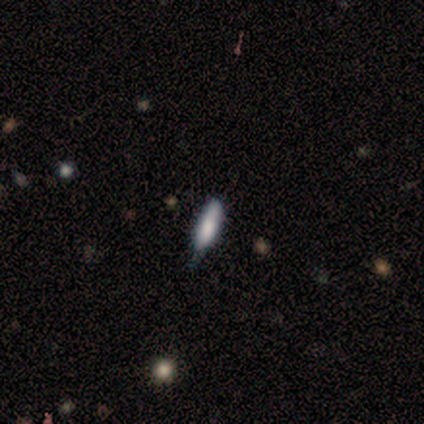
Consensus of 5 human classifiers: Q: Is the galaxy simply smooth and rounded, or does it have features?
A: featured or disk — 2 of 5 (40%, tied with star or artifact).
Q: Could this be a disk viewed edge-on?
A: yes — 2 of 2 (100%).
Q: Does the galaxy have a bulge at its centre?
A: boxy — 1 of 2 (50%, tied with none).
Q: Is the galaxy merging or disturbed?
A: minor disturbance — 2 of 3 (67%).